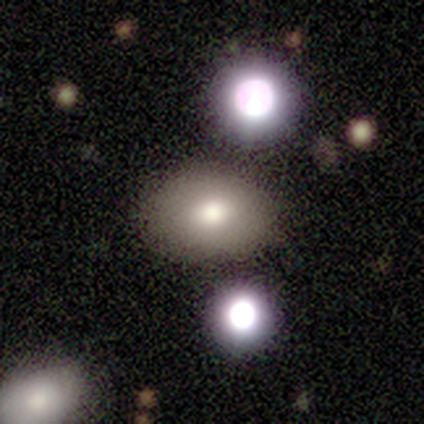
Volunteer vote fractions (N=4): This appears to be a smooth galaxy with no disk features (100%) that is round (50%, tied with in between). Merging: none (100%).